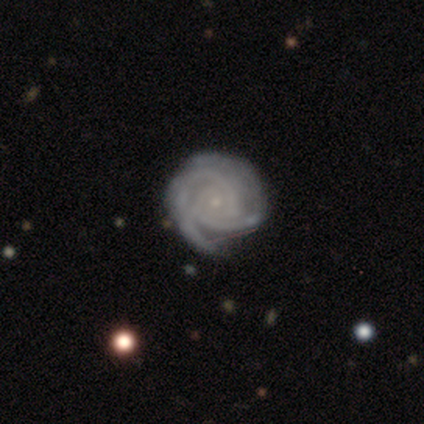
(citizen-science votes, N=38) featured or disk 89%, star or artifact 11%, smooth 0%. Down the decision tree: edge-on disk — no (97%); bar — no (82%); spiral arms — yes (100%); spiral arm count — 2 (55%); spiral winding — tight (79%); bulge size — small (88%); merging — none (62%).